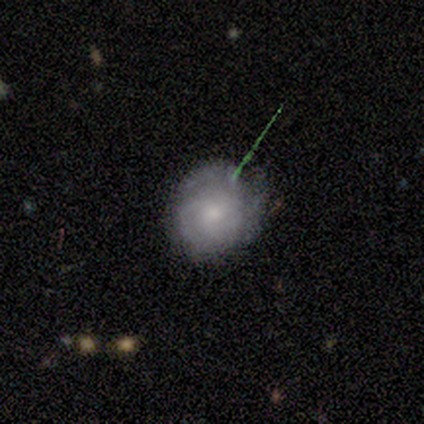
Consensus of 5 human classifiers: Smooth or featured: featured or disk — 60% (smooth — 20%)
Edge-on disk: no — 100%
Bar: no — 100%
Spiral arms: yes — 100%
Spiral winding: tight — 100%
Spiral arm count: 3 — 67% (4 — 33%)
Bulge size: small — 67% (moderate — 33%)
Merging: none — 75% (minor disturbance — 25%)